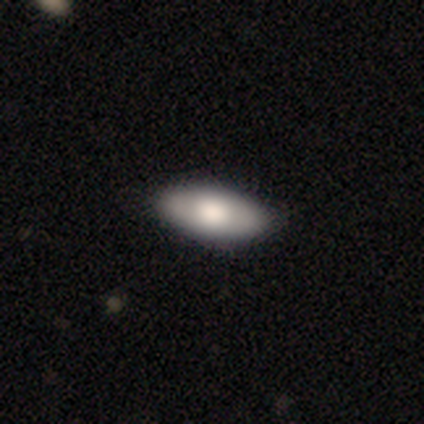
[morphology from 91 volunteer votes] Smooth or featured? 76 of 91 (84%) said smooth. How rounded? 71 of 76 (93%) said in between. Merging? 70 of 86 (81%) said none.